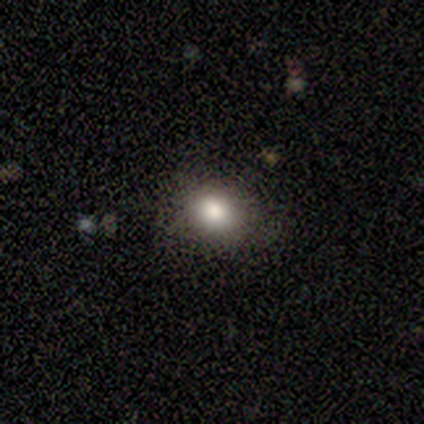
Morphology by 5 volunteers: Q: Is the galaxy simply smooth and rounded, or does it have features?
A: smooth — 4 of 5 (80%).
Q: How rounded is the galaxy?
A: round — 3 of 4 (75%).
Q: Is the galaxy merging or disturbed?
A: none — 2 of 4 (50%, tied with major disturbance).